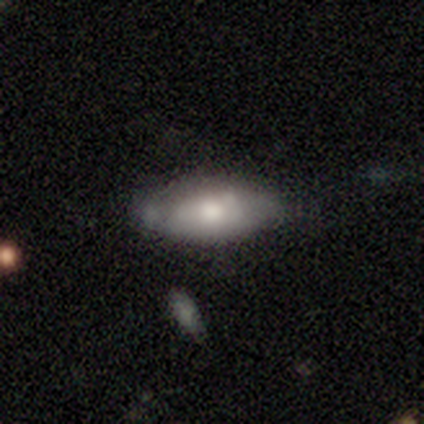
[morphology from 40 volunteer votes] smooth-or-featured: smooth: 70% | featured or disk: 20% | star or artifact: 10%
  how-rounded: in between: 89% | round: 7% | cigar-shaped: 4%
  merging: none: 67% | minor disturbance: 19% | major disturbance: 8% | merger: 6%